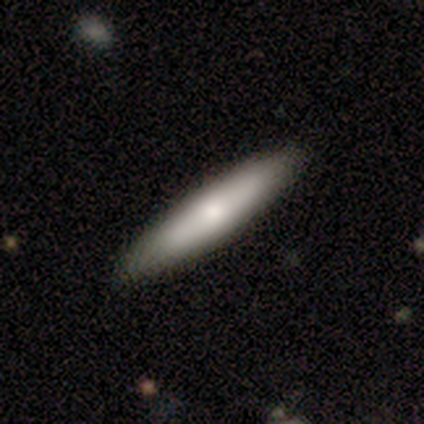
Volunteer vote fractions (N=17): A smooth galaxy with no disk features (88%) that is cigar-shaped (87%).

Vote fractions:
- Smooth or featured? smooth: 88% / featured or disk: 12% / star or artifact: 0%
- How rounded? cigar-shaped: 87% / in between: 13% / round: 0%
- Merging? none: 100% / minor disturbance: 0% / major disturbance: 0% / merger: 0%